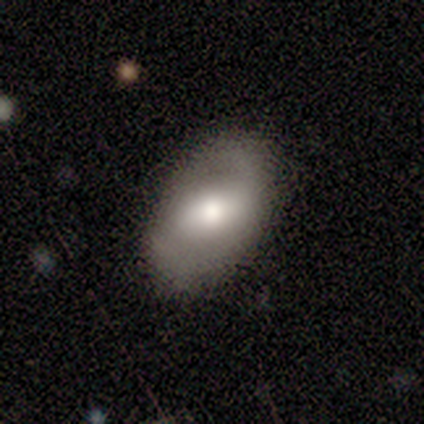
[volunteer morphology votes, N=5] Volunteers were most divided on "smooth or featured": smooth: 60%, featured or disk: 40%, star or artifact: 0%. More confident: how rounded — in between (100%); merging — none (60%).